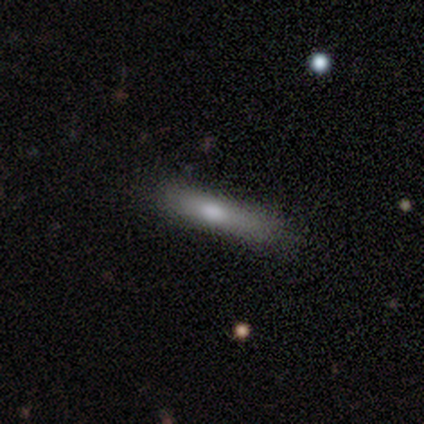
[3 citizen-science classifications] smooth 100%, featured or disk 0%, star or artifact 0%. Down the decision tree: how rounded — cigar-shaped (67%); merging — none (67%).